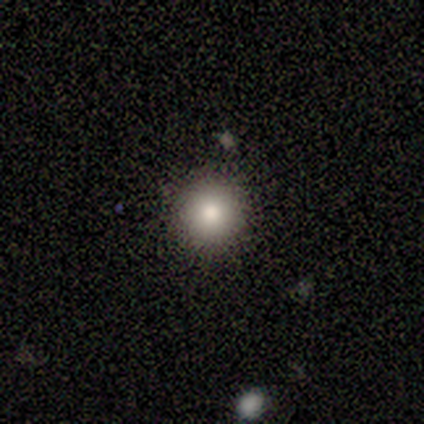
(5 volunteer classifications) Q: Smooth or featured?
A: smooth (100%)
Q: How rounded?
A: round (100%)
Q: Merging?
A: none (100%)